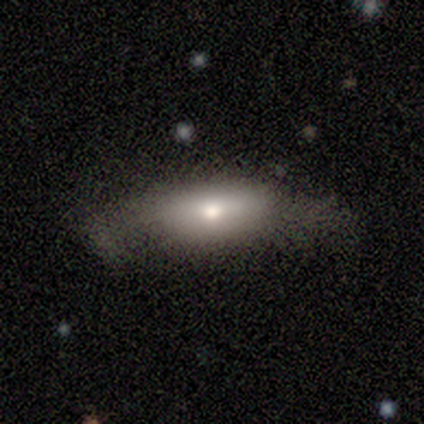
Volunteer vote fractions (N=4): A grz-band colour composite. It shows a smooth galaxy with no disk features (75%) that is in between round and cigar-shaped (100%). Merging: none (50%, tied with minor disturbance).